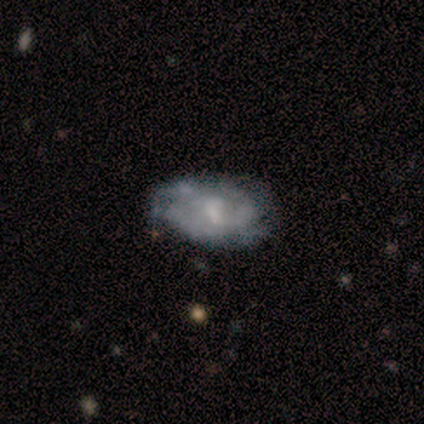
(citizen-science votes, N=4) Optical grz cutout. It shows a smooth galaxy with no disk features (50%) that is in between round and cigar-shaped (100%). Merging: none (67%).